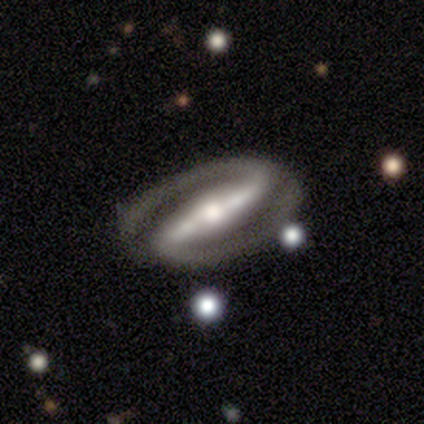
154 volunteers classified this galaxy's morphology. Overall: featured or disk (94%). Edge-on disk: no (92%). Bar: strong (97%). Spiral arms: yes (98%). Spiral arm count: 2 (98%). Spiral winding: tight (48%; medium 41%). Bulge size: moderate (72%). Merging: none (93%).